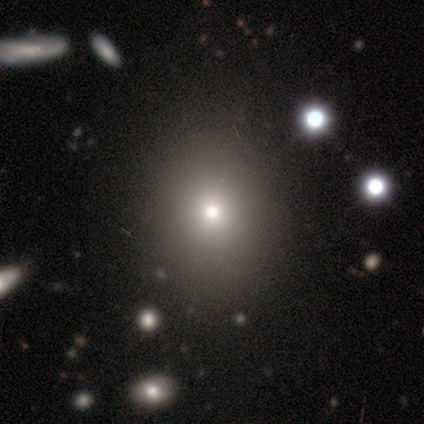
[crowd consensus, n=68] smooth_or_featured: smooth (p=0.78) [alt: star or artifact p=0.16]
how_rounded: round (p=0.64) [alt: in between p=0.36]
merging: none (p=0.60) [alt: minor disturbance p=0.04]